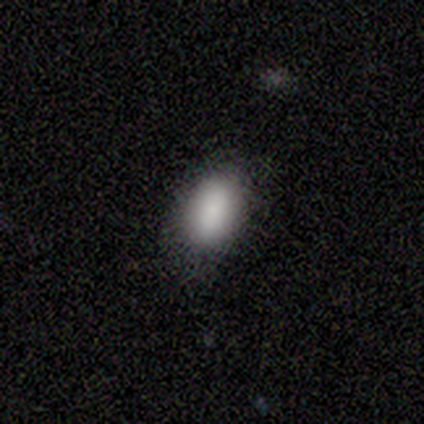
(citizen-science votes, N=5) smooth-or-featured: smooth: 100% | featured or disk: 0% | star or artifact: 0%
  how-rounded: in between: 80% | round: 20% | cigar-shaped: 0%
  merging: none: 100% | minor disturbance: 0% | major disturbance: 0% | merger: 0%